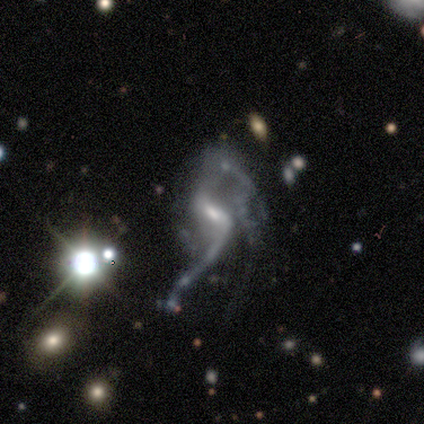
smooth-or-featured: featured or disk: 100% | smooth: 0% | star or artifact: 0%
  disk-edge-on: no: 86% | yes: 14%
    bar: strong: 50% | weak: 33% | no: 17%
    has-spiral-arms: yes: 83% | no: 17%
      spiral-winding: loose: 80% | medium: 20% | tight: 0%
      spiral-arm-count: 2: 80% | 3: 20% | 1: 0% | 4: 0% | more than 4: 0% | can't tell: 0%
    bulge-size: moderate: 50% (tied) | small: 50% (tied) | dominant: 0% | large: 0% | none: 0%
  merging: merger: 57% | major disturbance: 29% | minor disturbance: 14% | none: 0%